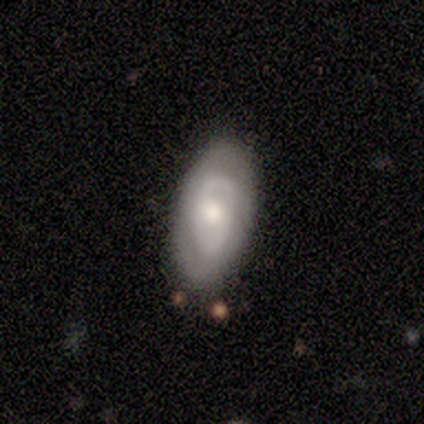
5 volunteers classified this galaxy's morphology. This appears to be a smooth galaxy with no disk features (80%) that is in between round and cigar-shaped (100%). Merging: none (60%).